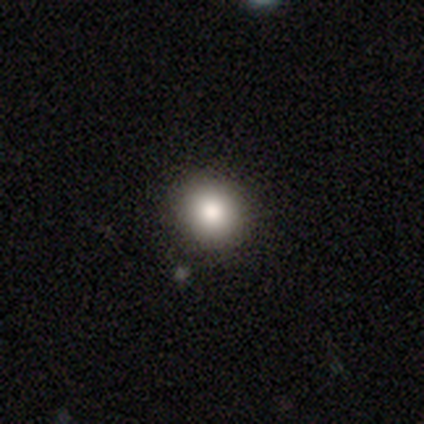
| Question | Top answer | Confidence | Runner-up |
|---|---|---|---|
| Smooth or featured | smooth | 84% | star or artifact (10%) |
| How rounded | round | 87% | in between (10%) |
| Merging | none | 87% | minor disturbance (11%) |